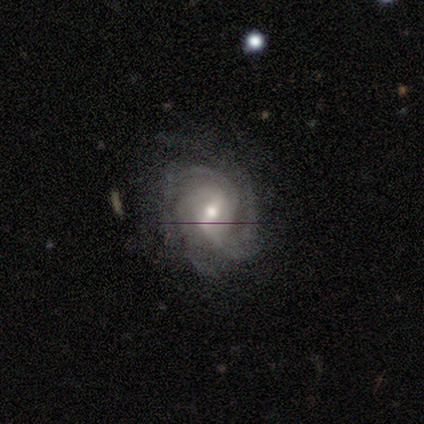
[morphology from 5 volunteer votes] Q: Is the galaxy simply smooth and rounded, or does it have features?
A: featured or disk — 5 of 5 (100%).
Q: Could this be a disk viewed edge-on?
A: no — 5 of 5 (100%).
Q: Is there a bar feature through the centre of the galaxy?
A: weak — 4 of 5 (80%).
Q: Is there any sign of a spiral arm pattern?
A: yes — 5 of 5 (100%).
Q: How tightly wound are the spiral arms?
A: tight — 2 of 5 (40%, tied with medium).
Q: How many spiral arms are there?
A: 2 — 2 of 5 (40%, tied with 3).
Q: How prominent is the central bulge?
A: small — 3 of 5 (60%).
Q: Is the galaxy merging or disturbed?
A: none — 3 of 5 (60%).